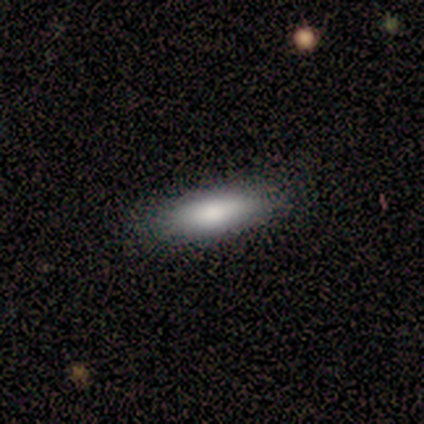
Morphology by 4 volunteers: Volunteers were most divided on "how rounded": cigar-shaped: 67%, in between: 33%, round: 0%. More confident: merging — none (100%); smooth or featured — smooth (75%).